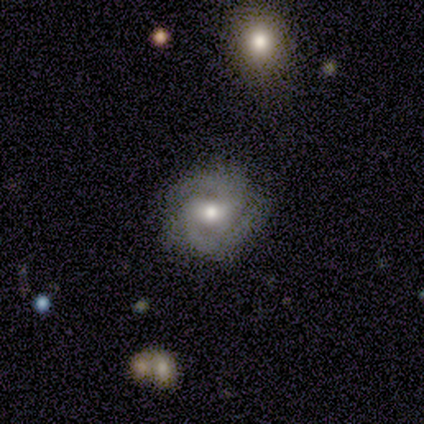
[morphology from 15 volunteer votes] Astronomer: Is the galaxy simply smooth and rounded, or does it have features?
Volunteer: featured or disk — 87%.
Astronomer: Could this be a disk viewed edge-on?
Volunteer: no — 92%.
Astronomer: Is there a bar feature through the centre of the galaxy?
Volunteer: weak — 58%.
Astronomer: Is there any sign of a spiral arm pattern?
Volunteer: yes — 92%.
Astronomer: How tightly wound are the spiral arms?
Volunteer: medium — 55% (runner-up: tight, 36%).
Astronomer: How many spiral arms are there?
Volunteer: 2 — 73%.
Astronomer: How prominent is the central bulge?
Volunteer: moderate — 50% (runner-up: small, 42%).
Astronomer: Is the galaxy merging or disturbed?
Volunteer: none — 73%.